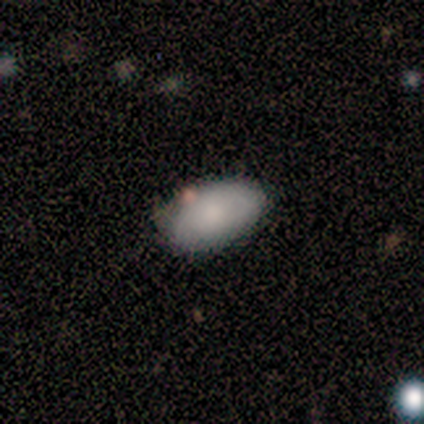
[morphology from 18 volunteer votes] Smooth or featured? 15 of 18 (83%) said smooth. How rounded? 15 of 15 (100%) said in between. Merging? 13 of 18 (72%) said none.